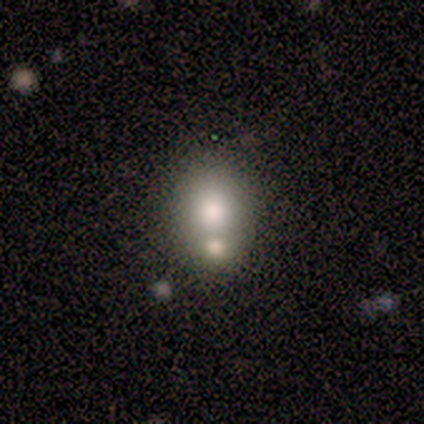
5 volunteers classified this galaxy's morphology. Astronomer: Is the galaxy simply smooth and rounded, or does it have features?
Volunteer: smooth — 80%.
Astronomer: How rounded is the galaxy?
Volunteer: round — 50%, tied with in between at 50%.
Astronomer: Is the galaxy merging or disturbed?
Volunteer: merger — 75%.